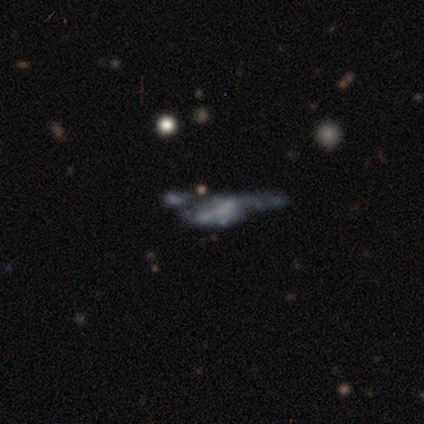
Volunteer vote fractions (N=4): smooth-or-featured: featured or disk: 50% | smooth: 25% | star or artifact: 25%
  disk-edge-on: yes: 50% (tied) | no: 50% (tied)
    edge-on-bulge: rounded: 100% | boxy: 0% | none: 0%
  merging: major disturbance: 67% | none: 33% | minor disturbance: 0% | merger: 0%